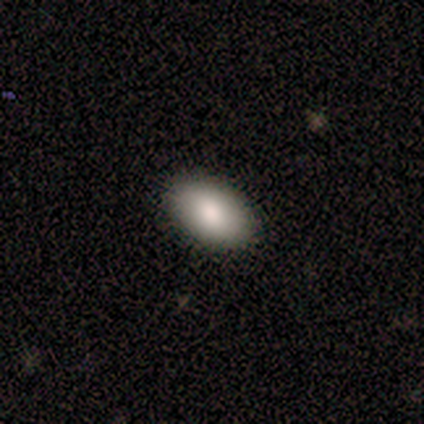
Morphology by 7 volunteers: Volunteers were most divided on "smooth or featured": smooth: 71%, featured or disk: 29%, star or artifact: 0%. More confident: how rounded — in between (100%); merging — none (86%).